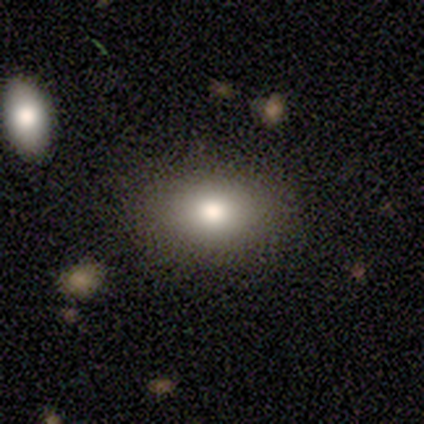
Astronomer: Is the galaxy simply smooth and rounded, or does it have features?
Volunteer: smooth — 80%.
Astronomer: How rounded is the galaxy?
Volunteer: in between — 100%.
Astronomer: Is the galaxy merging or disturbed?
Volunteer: none — 100%.